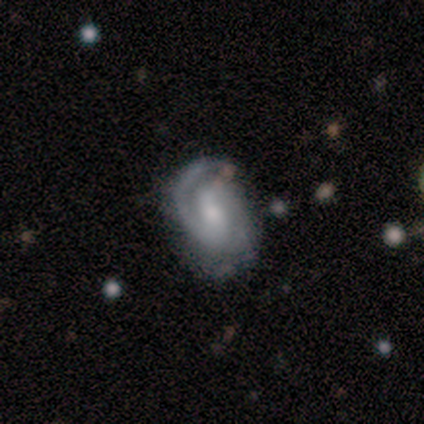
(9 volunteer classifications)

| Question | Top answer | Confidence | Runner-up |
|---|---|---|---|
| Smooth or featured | featured or disk | 100% | — |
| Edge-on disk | no | 100% | — |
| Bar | weak | 44% | strong (33%) |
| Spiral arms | yes | 89% | no (11%) |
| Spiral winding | medium | 50% | tight (38%) |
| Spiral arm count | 1 | 50% | tied: 2 (50%) |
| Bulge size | moderate | 33% | tied: small (33%) |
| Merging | none | 67% | minor disturbance (22%) |